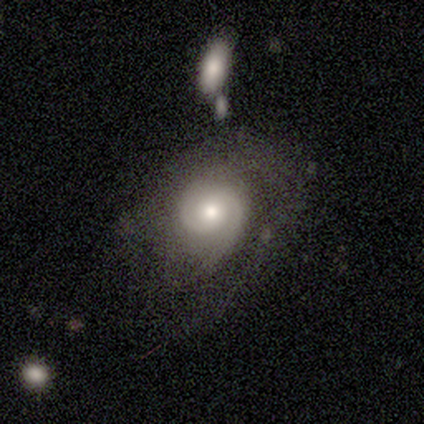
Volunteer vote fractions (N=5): Smooth or featured? 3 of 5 (60%) said featured or disk. Edge-on disk? 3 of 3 (100%) said no. Bar? 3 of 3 (100%) said no. Spiral arms? 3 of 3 (100%) said yes. Spiral winding? 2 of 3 (67%) said medium. Spiral arm count? 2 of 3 (67%) said 2. Bulge size? 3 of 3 (100%) said moderate. Merging? 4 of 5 (80%) said none.